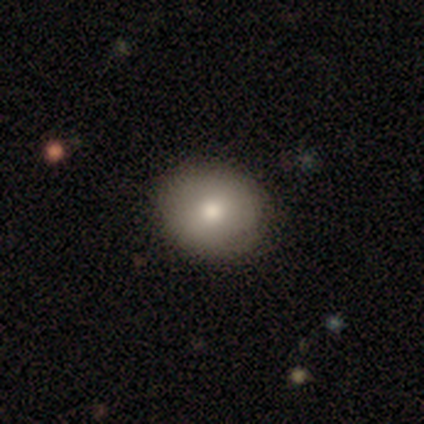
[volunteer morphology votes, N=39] Overall: smooth (85%). How rounded: round (82%). Merging: none (92%).